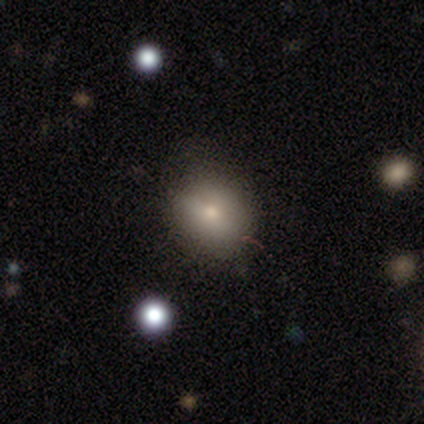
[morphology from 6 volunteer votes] Overall: smooth (50%; featured or disk 33%). How rounded: round (67%; in between 33%). Merging: none (80%).